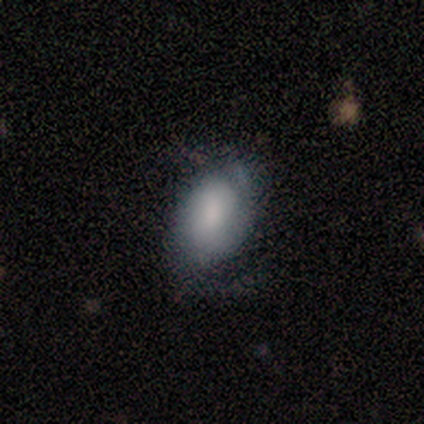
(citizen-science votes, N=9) Smooth or featured: smooth — 67% (featured or disk — 22%)
How rounded: in between — 83% (round — 17%)
Merging: minor disturbance — 75% (none — 25%)